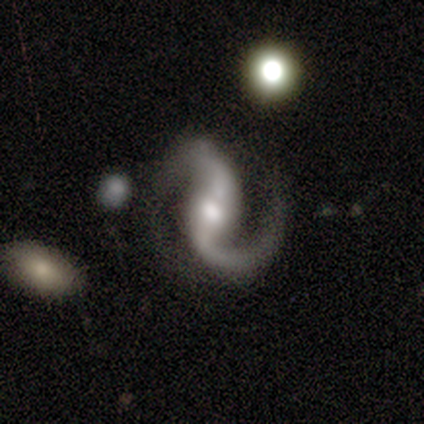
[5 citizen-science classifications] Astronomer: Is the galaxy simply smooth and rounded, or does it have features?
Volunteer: featured or disk — 80%.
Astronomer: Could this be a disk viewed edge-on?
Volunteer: no — 100%.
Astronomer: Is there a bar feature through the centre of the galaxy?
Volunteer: weak — 50%, tied with no at 50%.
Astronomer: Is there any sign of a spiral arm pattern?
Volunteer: yes — 100%.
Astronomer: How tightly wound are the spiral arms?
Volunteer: medium — 50%.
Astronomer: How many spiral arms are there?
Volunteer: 2 — 100%.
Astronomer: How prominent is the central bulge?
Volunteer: moderate — 50%, tied with small at 50%.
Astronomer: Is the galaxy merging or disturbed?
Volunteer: none — 75%.